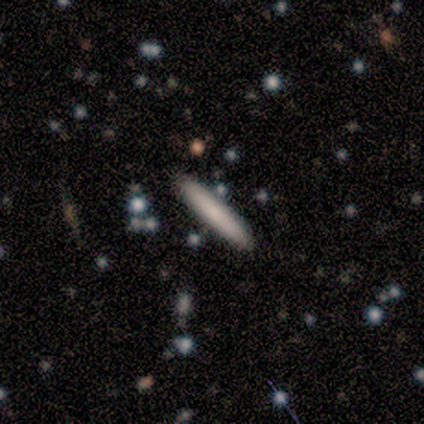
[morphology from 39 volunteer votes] smooth 54%, featured or disk 41%, star or artifact 5%. Down the decision tree: how rounded — cigar-shaped (100%); merging — none (89%).